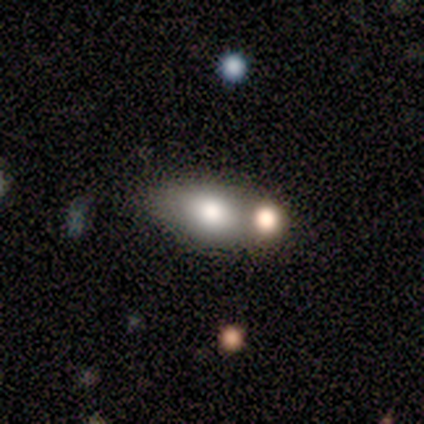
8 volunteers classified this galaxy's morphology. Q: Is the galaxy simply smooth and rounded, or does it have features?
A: smooth — 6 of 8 (75%).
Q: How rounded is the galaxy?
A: in between — 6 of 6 (100%).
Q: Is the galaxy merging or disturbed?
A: none — 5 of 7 (71%).